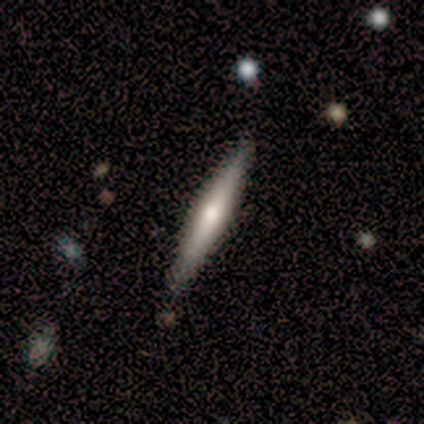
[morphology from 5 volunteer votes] A featured or disk galaxy (60%) viewed edge-on (100%) with a rounded central bulge (100%).

Vote fractions:
- Smooth or featured? featured or disk: 60% / smooth: 40% / star or artifact: 0%
- Edge-on disk? yes: 100% / no: 0%
- Edge-on bulge? rounded: 100% / boxy: 0% / none: 0%
- Merging? none: 80% / minor disturbance: 20% / major disturbance: 0% / merger: 0%